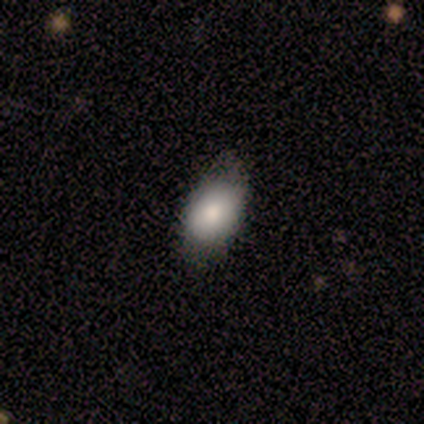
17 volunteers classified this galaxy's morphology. smooth-or-featured: smooth: 94% | featured or disk: 6% | star or artifact: 0%
  how-rounded: in between: 100% | round: 0% | cigar-shaped: 0%
  merging: none: 59% | minor disturbance: 35% | major disturbance: 6% | merger: 0%